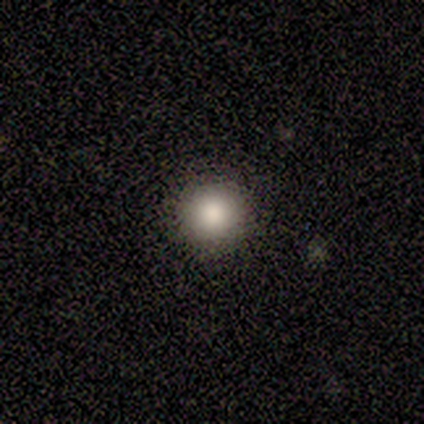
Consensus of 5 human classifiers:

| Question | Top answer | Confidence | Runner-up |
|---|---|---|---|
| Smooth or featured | smooth | 80% | star or artifact (20%) |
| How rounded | round | 100% | — |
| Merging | none | 100% | — |